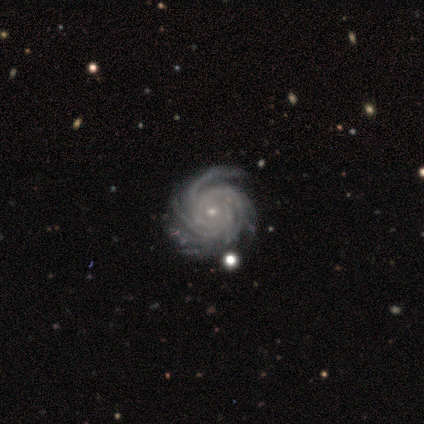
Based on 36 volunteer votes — This appears to be a featured or disk galaxy (92%) with no bar (91%), more than 4 (36%) tight (82%) spiral arms (100%) and a small central bulge (76%). Merging: none (74%).